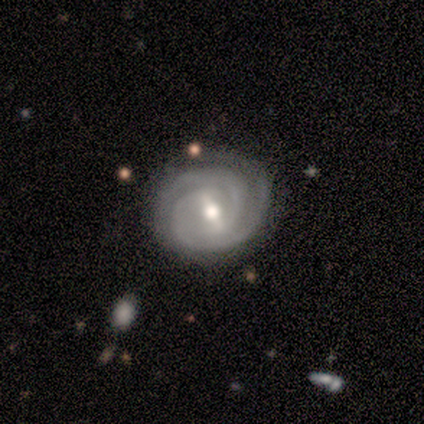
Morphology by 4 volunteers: Q: Smooth or featured?
A: featured or disk (75%); runner-up: star or artifact (25%)
Q: Edge-on disk?
A: no (100%)
Q: Bar?
A: strong (33%); tied with: weak (33%); no (33%)
Q: Spiral arms?
A: yes (100%)
Q: Spiral winding?
A: tight (100%)
Q: Spiral arm count?
A: 2 (67%); runner-up: 3 (33%)
Q: Bulge size?
A: moderate (67%); runner-up: small (33%)
Q: Merging?
A: none (100%)